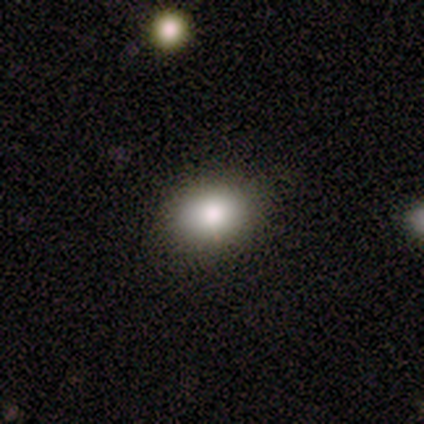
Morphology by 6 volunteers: This appears to be a smooth galaxy with no disk features (100%) that is in between round and cigar-shaped (83%). Merging: none (83%).